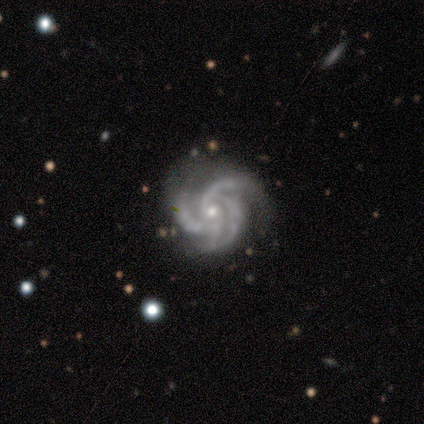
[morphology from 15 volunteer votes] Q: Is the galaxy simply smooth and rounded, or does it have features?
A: featured or disk — 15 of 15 (100%).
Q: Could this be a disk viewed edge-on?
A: no — 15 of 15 (100%).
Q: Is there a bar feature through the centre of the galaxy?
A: no — 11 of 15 (73%).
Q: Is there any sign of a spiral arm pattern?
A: yes — 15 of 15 (100%).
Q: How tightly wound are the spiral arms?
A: tight — 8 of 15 (53%).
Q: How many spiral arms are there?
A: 3 — 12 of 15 (80%).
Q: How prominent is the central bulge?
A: small — 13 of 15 (87%).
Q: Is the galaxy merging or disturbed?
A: none — 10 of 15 (67%).